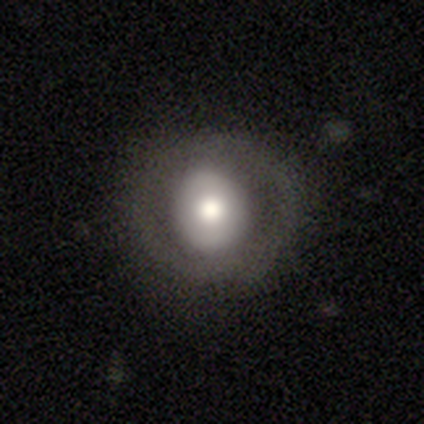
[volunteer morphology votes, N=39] type=smooth (59%); roundness=round (78%); merging=none (87%).